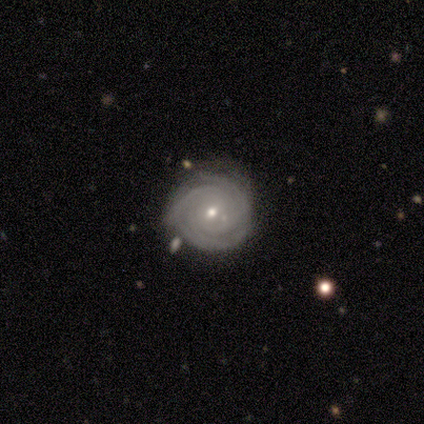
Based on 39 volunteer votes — Smooth or featured: featured or disk — 95% (star or artifact — 5%)
Edge-on disk: no — 100%
Bar: no — 62% (weak — 35%)
Spiral arms: yes — 97% (no — 3%)
Spiral winding: tight — 86% (medium — 14%)
Spiral arm count: 3 — 39% (4 — 25%)
Bulge size: small — 54% (moderate — 46%)
Merging: none — 84% (minor disturbance — 14%)